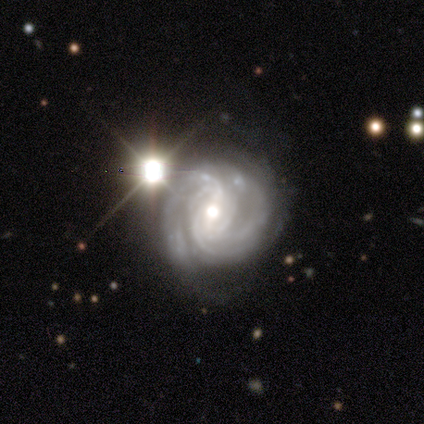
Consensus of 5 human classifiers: featured or disk 80%, star or artifact 20%, smooth 0%. Down the decision tree: edge-on disk — no (100%); bar — weak (50%); spiral arms — yes (75%); spiral arm count — 2 (67%); spiral winding — medium (67%); bulge size — moderate (75%); merging — none (100%).